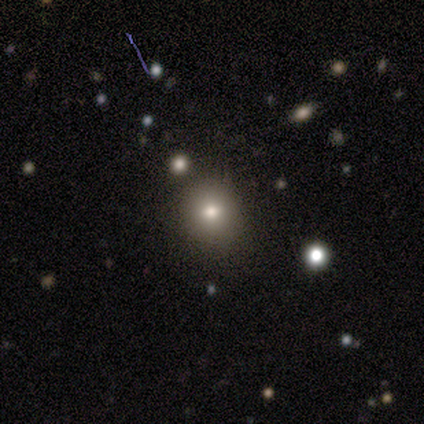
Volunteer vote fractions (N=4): A smooth galaxy with no disk features (75%) that is round (100%). Merging: none (100%).